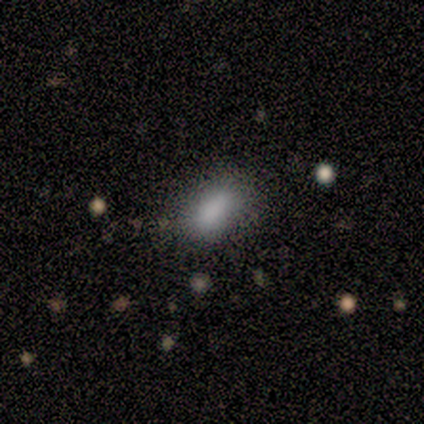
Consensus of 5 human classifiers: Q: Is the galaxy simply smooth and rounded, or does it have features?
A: smooth — 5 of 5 (100%).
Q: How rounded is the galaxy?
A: in between — 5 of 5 (100%).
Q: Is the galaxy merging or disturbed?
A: none — 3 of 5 (60%).